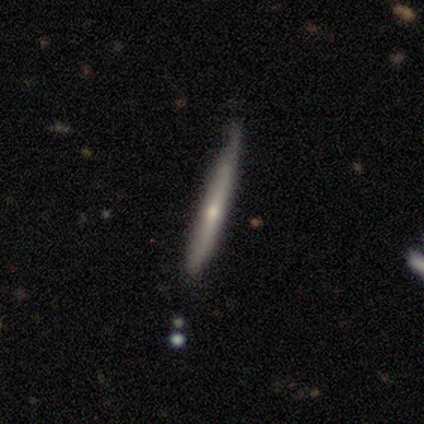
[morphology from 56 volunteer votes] Smooth or featured?
  - featured or disk: 64% *
  - smooth: 32%
  - star or artifact: 4%
Edge-on disk?
  - yes: 97% *
  - no: 3%
Edge-on bulge?
  - rounded: 71% *
  - none: 26%
  - boxy: 3%
Merging?
  - none: 61% *
  - minor disturbance: 39%
  - major disturbance: 0%
  - merger: 0%